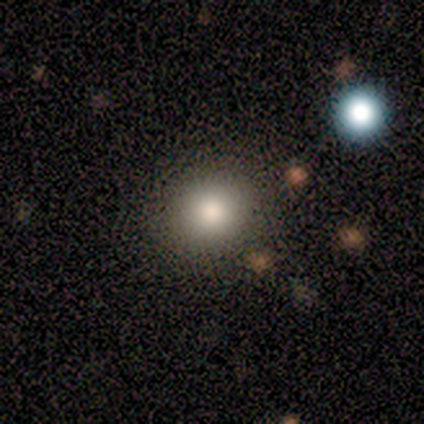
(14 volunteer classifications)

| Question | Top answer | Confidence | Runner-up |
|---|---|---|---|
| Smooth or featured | smooth | 86% | featured or disk (7%) |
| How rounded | round | 92% | in between (8%) |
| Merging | none | 85% | minor disturbance (8%) |